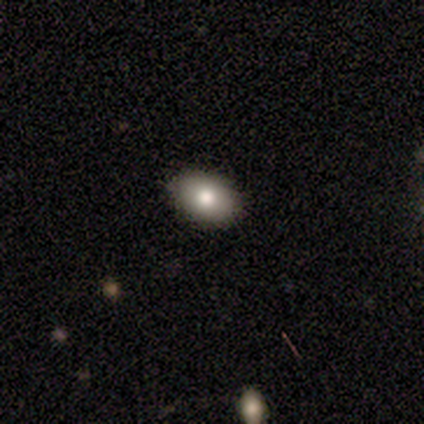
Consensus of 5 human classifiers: Q: Smooth or featured?
A: smooth (100%)
Q: How rounded?
A: in between (60%); runner-up: round (40%)
Q: Merging?
A: none (100%)